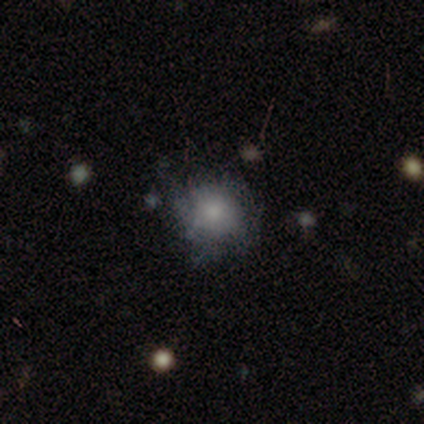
Smooth or featured? 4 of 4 (100%) said smooth. How rounded? 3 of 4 (75%) said round. Merging? 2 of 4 (50%, tied with minor disturbance) said none.